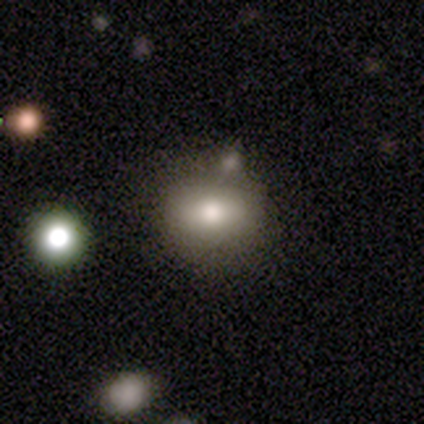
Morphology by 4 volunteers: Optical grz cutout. It shows a featured or disk galaxy (75%) with no bar (100%), no spiral arms (100%) and a large central bulge (67%). Merging: none (100%).